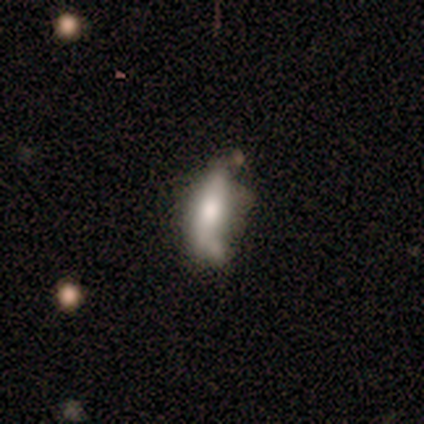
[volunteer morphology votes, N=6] smooth_or_featured: smooth (p=0.50) [tied with: featured or disk p=0.50]
how_rounded: cigar-shaped (p=1.00)
merging: none (p=0.50) [alt: merger p=0.33]